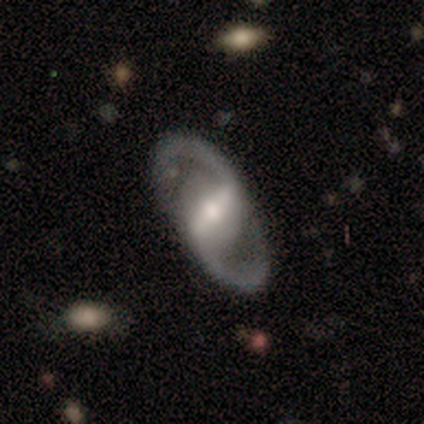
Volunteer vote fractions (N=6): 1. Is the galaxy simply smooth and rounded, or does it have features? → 100% featured or disk, 0% smooth, 0% star or artifact.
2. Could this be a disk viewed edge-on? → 100% no, 0% yes.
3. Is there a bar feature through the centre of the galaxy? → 83% strong, 17% weak, 0% no.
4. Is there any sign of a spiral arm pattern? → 100% yes, 0% no.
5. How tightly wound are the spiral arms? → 67% medium, 17% tight, 17% loose.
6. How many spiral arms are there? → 100% 2, 0% 1, 0% 3, 0% 4, 0% more than 4, 0% can't tell.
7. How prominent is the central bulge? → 67% moderate, 17% small, 17% none, 0% dominant, 0% large.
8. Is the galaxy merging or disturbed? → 100% none, 0% minor disturbance, 0% major disturbance, 0% merger.